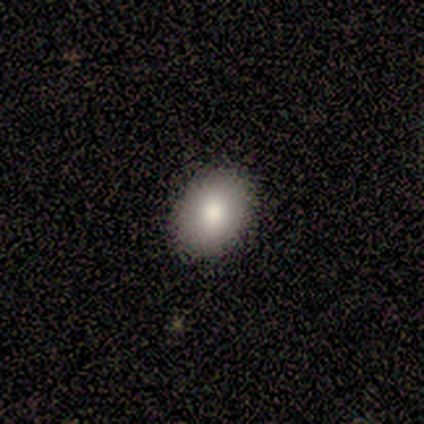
A smooth galaxy with no disk features (50%, tied with featured or disk) that is in between round and cigar-shaped (67%).

Vote fractions:
- Smooth or featured? smooth: 50% (tied) / featured or disk: 50% (tied) / star or artifact: 0%
- How rounded? in between: 67% / round: 33% / cigar-shaped: 0%
- Merging? none: 83% / minor disturbance: 17% / major disturbance: 0% / merger: 0%